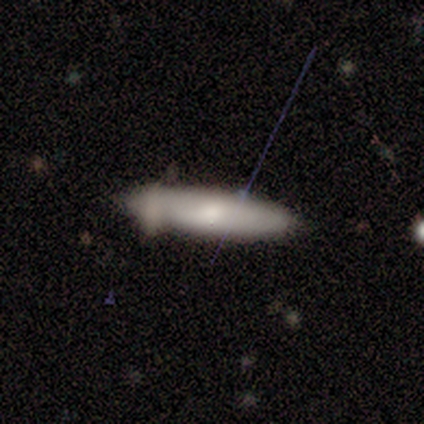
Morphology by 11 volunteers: Smooth or featured?
  - smooth: 55% *
  - featured or disk: 45%
  - star or artifact: 0%
How rounded?
  - cigar-shaped: 67% *
  - in between: 33%
  - round: 0%
Merging?
  - none: 55% *
  - minor disturbance: 36%
  - merger: 9%
  - major disturbance: 0%